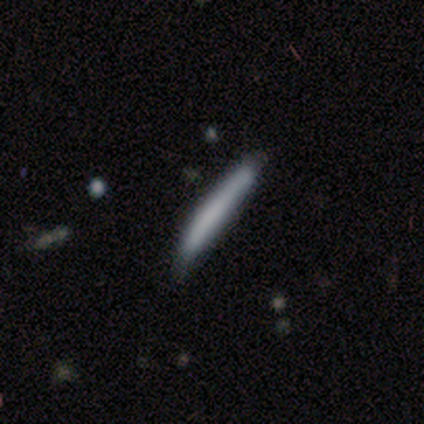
Smooth or featured: smooth — 100%
How rounded: cigar-shaped — 80% (in between — 20%)
Merging: minor disturbance — 60% (none — 40%)